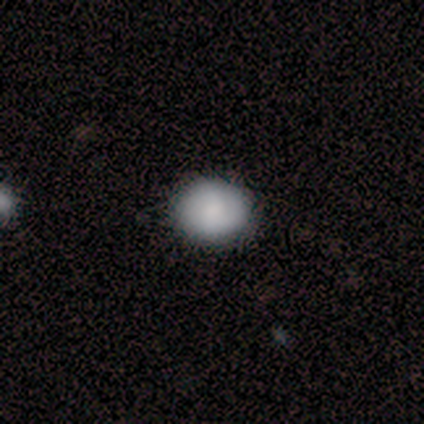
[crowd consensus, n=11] This appears to be a smooth galaxy with no disk features (64%) that is round (86%). Merging: none (100%).